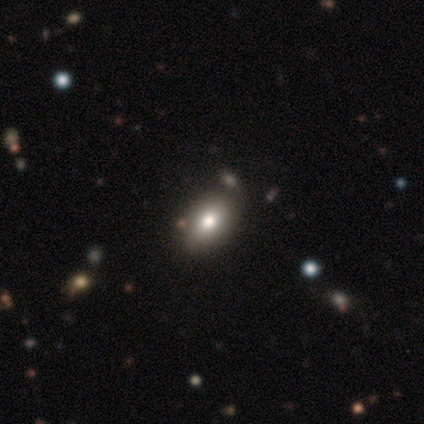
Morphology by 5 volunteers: Q: Smooth or featured?
A: smooth (80%); runner-up: star or artifact (20%)
Q: How rounded?
A: in between (75%); runner-up: round (25%)
Q: Merging?
A: none (50%); tied with: minor disturbance (50%)